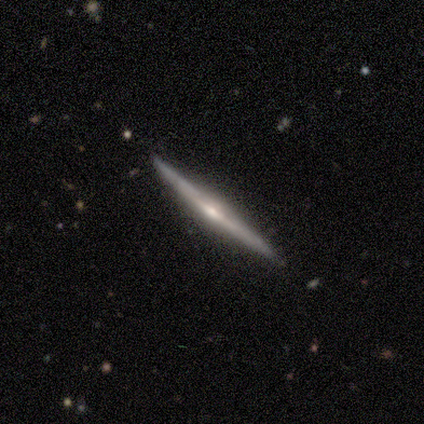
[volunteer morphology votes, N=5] Smooth or featured?
  - featured or disk: 100% *
  - smooth: 0%
  - star or artifact: 0%
Edge-on disk?
  - yes: 100% *
  - no: 0%
Edge-on bulge?
  - rounded: 60% *
  - boxy: 20%
  - none: 20%
Merging?
  - none: 80% *
  - minor disturbance: 20%
  - major disturbance: 0%
  - merger: 0%